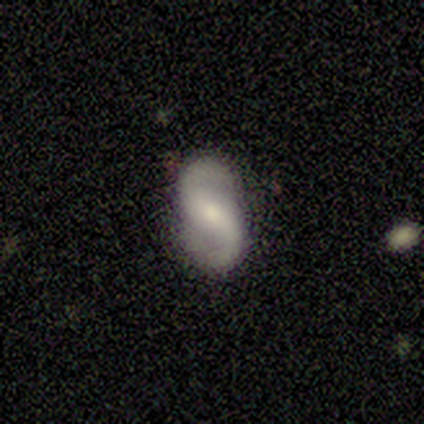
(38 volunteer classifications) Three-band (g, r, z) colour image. It shows a featured or disk galaxy (79%) with a weak bar (48%), 2 (93%) loose (59%) spiral arms (93%) and a moderate central bulge (38%, tied with small). Merging: none (83%).